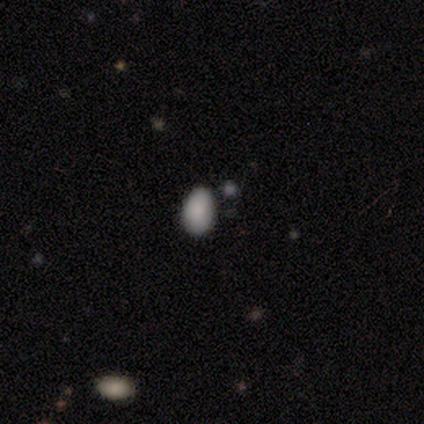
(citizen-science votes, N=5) Morphology: type=smooth (100%); roundness=in between (80%); merging=none (40%, tied with minor disturbance).